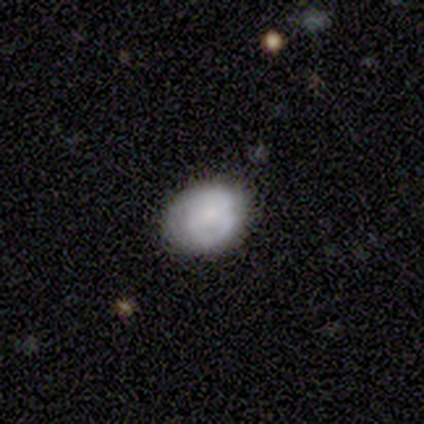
smooth-or-featured: featured or disk: 56% | smooth: 33% | star or artifact: 11%
  disk-edge-on: no: 100% | yes: 0%
    bar: weak: 40% (tied) | no: 40% (tied) | strong: 20%
    has-spiral-arms: yes: 60% | no: 40%
      spiral-winding: tight: 67% | medium: 33% | loose: 0%
      spiral-arm-count: can't tell: 100% | 1: 0% | 2: 0% | 3: 0% | 4: 0% | more than 4: 0%
    bulge-size: small: 60% | moderate: 40% | dominant: 0% | large: 0% | none: 0%
  merging: none: 62% | minor disturbance: 38% | major disturbance: 0% | merger: 0%